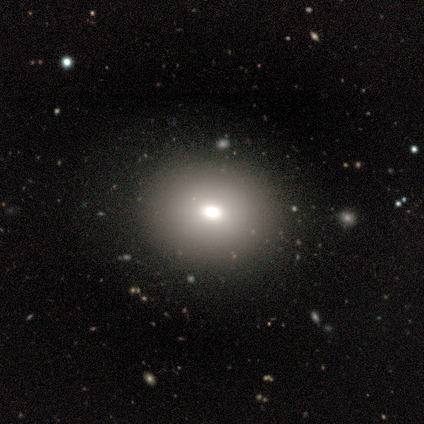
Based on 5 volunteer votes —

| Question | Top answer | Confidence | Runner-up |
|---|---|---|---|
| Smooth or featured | smooth | 60% | star or artifact (40%) |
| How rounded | in between | 67% | round (33%) |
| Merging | none | 100% | — |